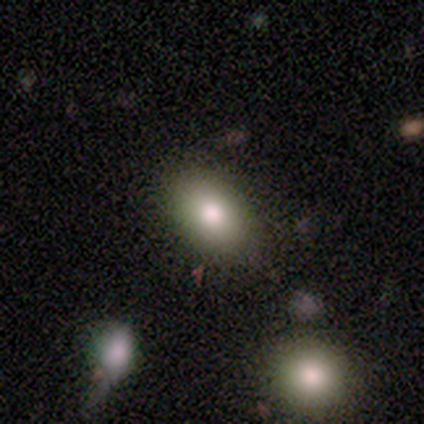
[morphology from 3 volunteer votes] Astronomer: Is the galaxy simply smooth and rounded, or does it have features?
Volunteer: featured or disk — 67%.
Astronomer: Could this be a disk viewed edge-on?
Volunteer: no — 100%.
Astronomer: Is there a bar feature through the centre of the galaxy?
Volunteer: no — 100%.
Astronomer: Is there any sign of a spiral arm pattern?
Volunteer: no — 100%.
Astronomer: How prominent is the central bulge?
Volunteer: large — 50%, tied with small at 50%.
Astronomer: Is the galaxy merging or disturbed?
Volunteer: none — 67%.